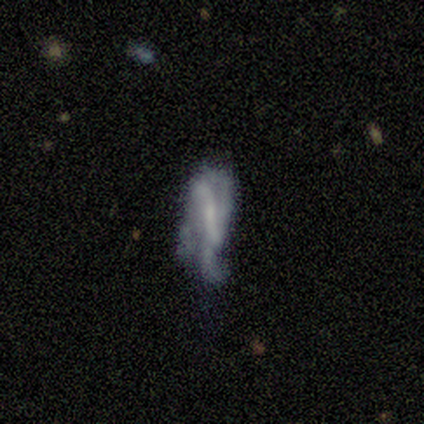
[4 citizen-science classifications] Smooth or featured? featured or disk (75%)
Edge-on disk? no (100%)
Bar? strong (33%, tied with weak and no)
Spiral arms? yes (67%)
Spiral winding? medium (50%, tied with loose)
Spiral arm count? 2 (100%)
Bulge size? dominant (33%, tied with small and none)
Merging? none (50%)